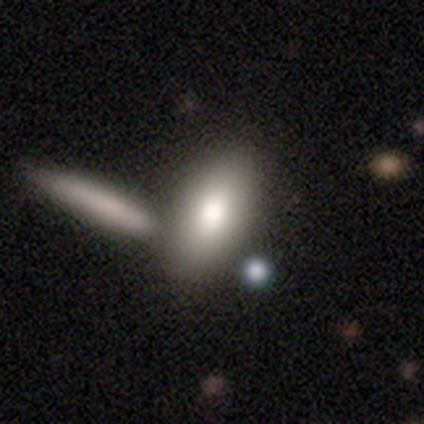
A smooth galaxy with no disk features (82%) that is in between round and cigar-shaped (90%). Merging: none (50%).